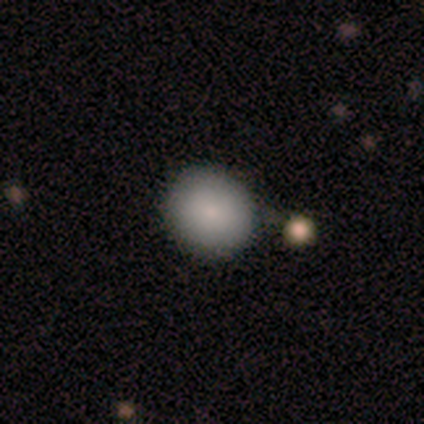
Smooth or featured? smooth (100%)
How rounded? round (100%)
Merging? none (100%)